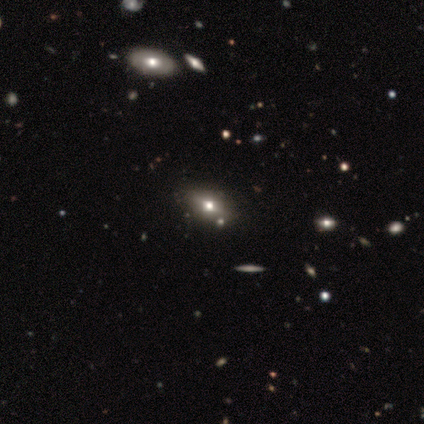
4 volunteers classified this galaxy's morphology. Smooth or featured: smooth — 75% (featured or disk — 25%)
How rounded: round — 33% (tied with in between — 33%; cigar-shaped — 33%)
Merging: none — 100%